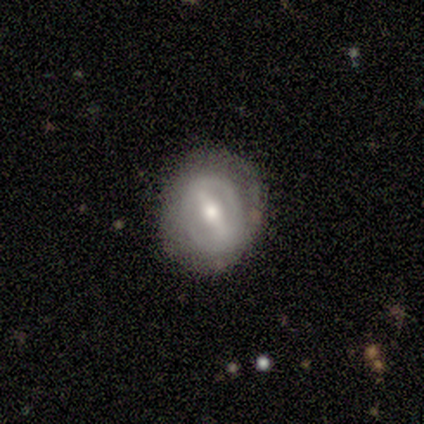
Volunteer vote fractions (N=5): Smooth or featured? featured or disk (100%)
Edge-on disk? no (80%)
Bar? strong (75%)
Spiral arms? yes (50%, tied with no)
Spiral winding? medium (100%)
Spiral arm count? 2 (100%)
Bulge size? small (75%)
Merging? none (80%)